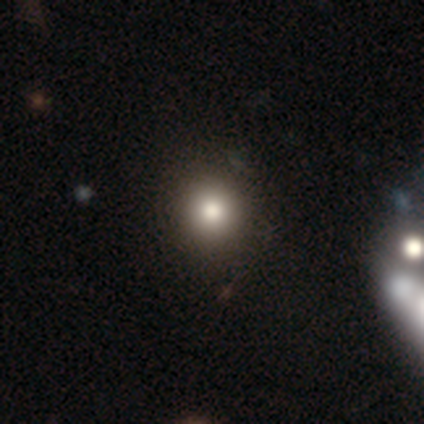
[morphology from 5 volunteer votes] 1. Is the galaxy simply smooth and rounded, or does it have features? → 60% smooth, 40% star or artifact, 0% featured or disk.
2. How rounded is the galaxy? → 100% round, 0% in between, 0% cigar-shaped.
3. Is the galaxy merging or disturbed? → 100% none, 0% minor disturbance, 0% major disturbance, 0% merger.